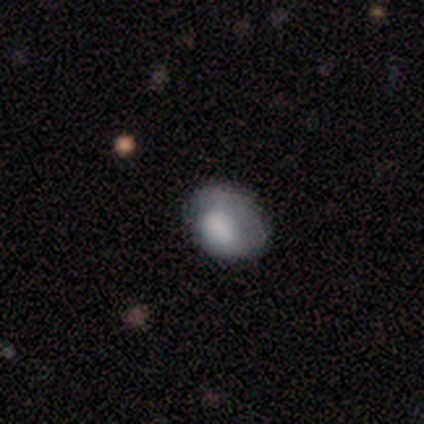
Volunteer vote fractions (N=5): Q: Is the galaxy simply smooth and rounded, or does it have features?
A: smooth — 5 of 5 (100%).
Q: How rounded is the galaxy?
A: in between — 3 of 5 (60%).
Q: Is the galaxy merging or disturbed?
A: none — 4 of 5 (80%).